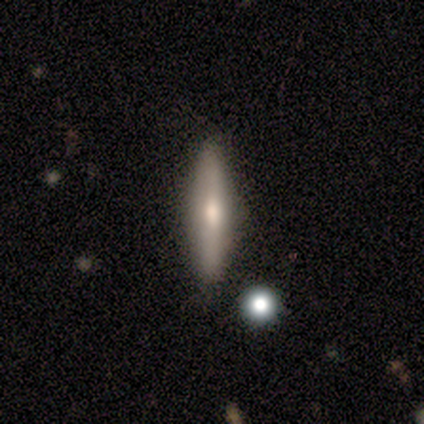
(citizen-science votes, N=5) Smooth or featured? 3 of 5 (60%) said featured or disk. Edge-on disk? 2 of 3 (67%) said yes. Edge-on bulge? 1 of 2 (50%, tied with rounded) said none. Merging? 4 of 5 (80%) said none.